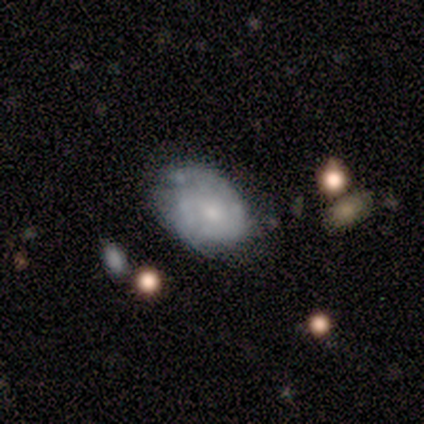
Smooth or featured: featured or disk — 59% (smooth — 35%)
Edge-on disk: no — 95% (yes — 5%)
Bar: no — 76% (weak — 24%)
Spiral arms: yes — 62% (no — 38%)
Spiral winding: tight — 85% (medium — 15%)
Spiral arm count: can't tell — 54% (2 — 31%)
Bulge size: small — 71% (moderate — 24%)
Merging: none — 46% (minor disturbance — 26%)